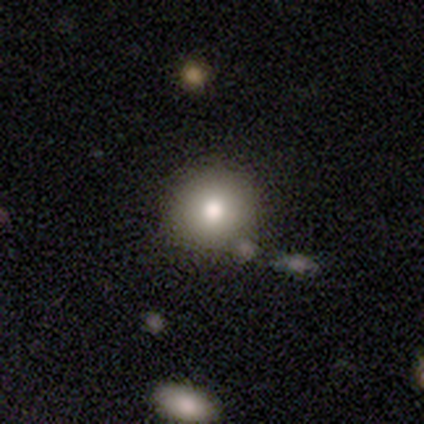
Q: Smooth or featured?
A: smooth (75%); runner-up: star or artifact (25%)
Q: How rounded?
A: round (67%); runner-up: in between (33%)
Q: Merging?
A: none (67%); runner-up: minor disturbance (33%)